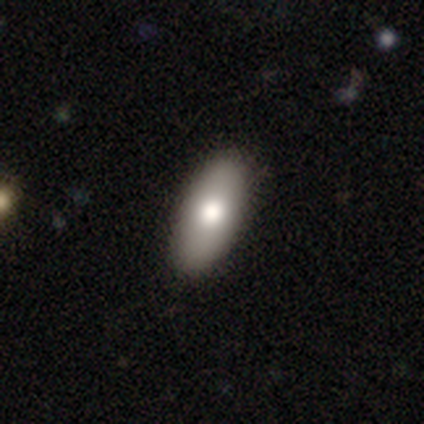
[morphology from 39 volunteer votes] Smooth or featured? 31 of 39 (79%) said smooth. How rounded? 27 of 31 (87%) said in between. Merging? 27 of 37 (73%) said none.